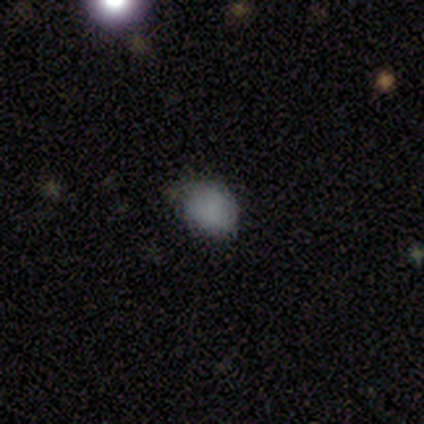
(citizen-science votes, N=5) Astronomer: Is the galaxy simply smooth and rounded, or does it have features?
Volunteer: smooth — 80%.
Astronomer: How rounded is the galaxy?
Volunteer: round — 50%, tied with in between at 50%.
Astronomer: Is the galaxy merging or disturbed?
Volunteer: none — 100%.